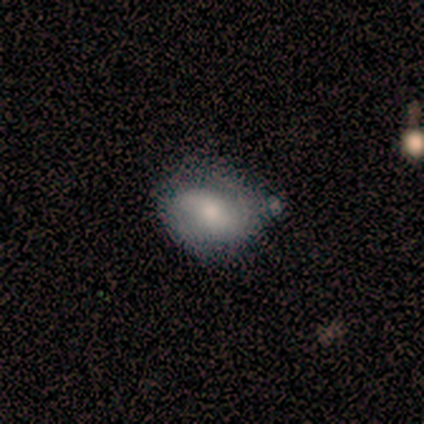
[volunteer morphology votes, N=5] Smooth or featured: smooth — 60% (featured or disk — 40%)
How rounded: in between — 67% (round — 33%)
Merging: none — 60% (minor disturbance — 40%)